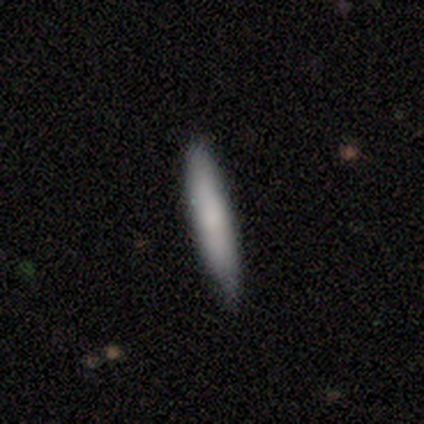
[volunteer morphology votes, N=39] Smooth or featured? 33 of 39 (85%) said smooth. How rounded? 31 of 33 (94%) said cigar-shaped. Merging? 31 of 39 (79%) said none.